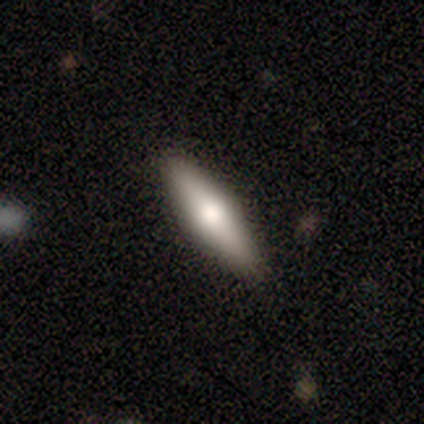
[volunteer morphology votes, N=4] type=smooth (100%); roundness=cigar-shaped (100%); merging=none (75%).